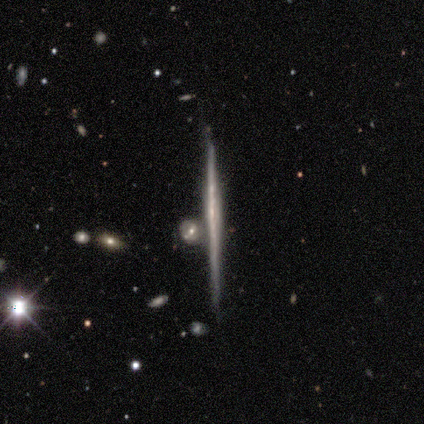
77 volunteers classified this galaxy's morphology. A featured or disk galaxy (86%) viewed edge-on (98%) with no central bulge (92%). Merging: none (68%).